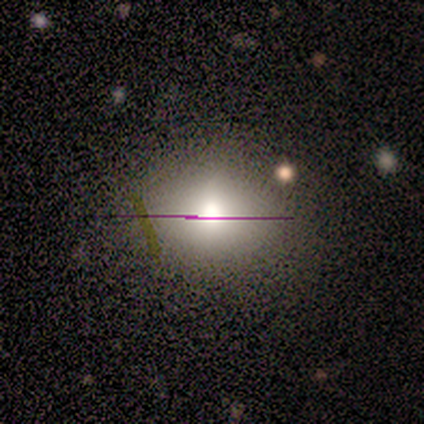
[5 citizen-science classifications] smooth 40% (tied), star or artifact 40% (tied), featured or disk 20%. Down the decision tree: how rounded — round (50%, tied with in between); merging — none (100%).